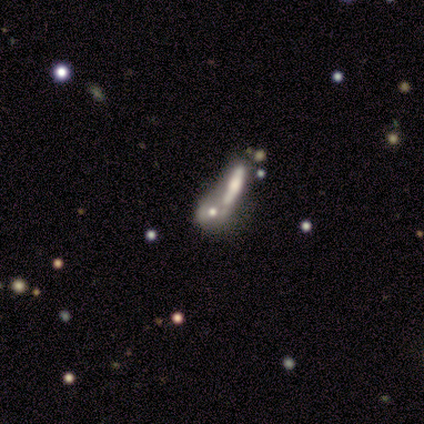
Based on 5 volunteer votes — Smooth or featured? 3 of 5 (60%) said smooth. How rounded? 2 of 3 (67%) said round. Merging? 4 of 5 (80%) said merger.